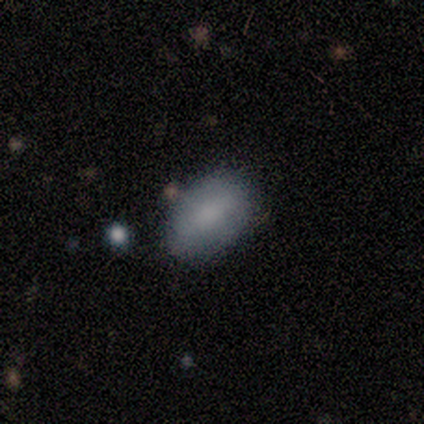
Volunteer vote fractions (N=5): Volunteers were most divided on "merging": none: 60%, minor disturbance: 20%, major disturbance: 20%, merger: 0%. More confident: smooth or featured — smooth (100%); how rounded — in between (100%).